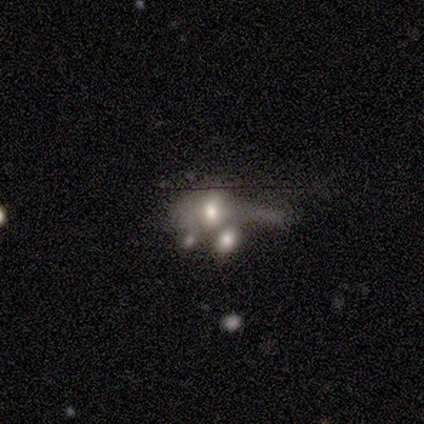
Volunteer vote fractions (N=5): A smooth galaxy with no disk features (60%) that is round (33%, tied with in between and cigar-shaped).

Vote fractions:
- Smooth or featured? smooth: 60% / featured or disk: 40% / star or artifact: 0%
- How rounded? round: 33% (tied) / in between: 33% (tied) / cigar-shaped: 33% (tied)
- Merging? major disturbance: 60% / none: 20% / merger: 20% / minor disturbance: 0%